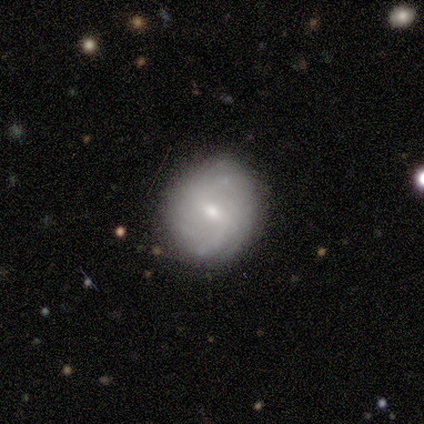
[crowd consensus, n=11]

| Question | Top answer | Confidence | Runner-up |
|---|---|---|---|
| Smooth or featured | featured or disk | 91% | smooth (9%) |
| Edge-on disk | no | 100% | — |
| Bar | weak | 90% | strong (10%) |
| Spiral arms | yes | 70% | no (30%) |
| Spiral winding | loose | 43% | tight (29%) |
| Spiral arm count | can't tell | 57% | 2 (29%) |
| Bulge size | small | 60% | moderate (40%) |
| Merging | none | 91% | minor disturbance (9%) |